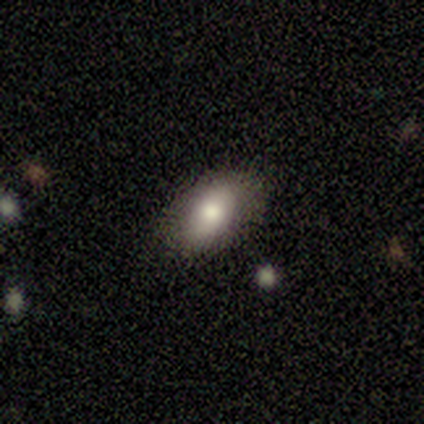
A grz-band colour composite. It shows a smooth galaxy with no disk features (72%) that is in between round and cigar-shaped (89%). Merging: none (76%).